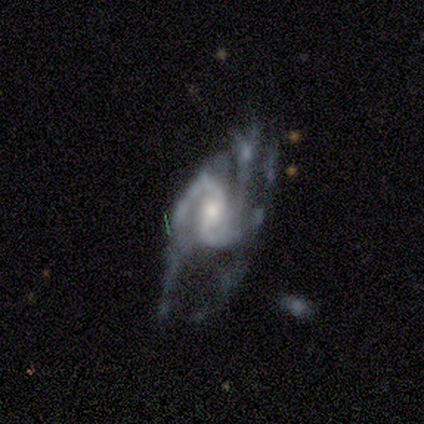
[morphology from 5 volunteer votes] smooth-or-featured: featured or disk: 80% | star or artifact: 20% | smooth: 0%
  disk-edge-on: no: 100% | yes: 0%
    bar: weak: 75% | no: 25% | strong: 0%
    has-spiral-arms: yes: 100% | no: 0%
      spiral-winding: medium: 75% | loose: 25% | tight: 0%
      spiral-arm-count: 2: 25% (tied) | 3: 25% (tied) | 4: 25% (tied) | can't tell: 25% (tied) | 1: 0% | more than 4: 0%
    bulge-size: moderate: 50% | large: 25% | small: 25% | dominant: 0% | none: 0%
  merging: major disturbance: 75% | none: 25% | minor disturbance: 0% | merger: 0%